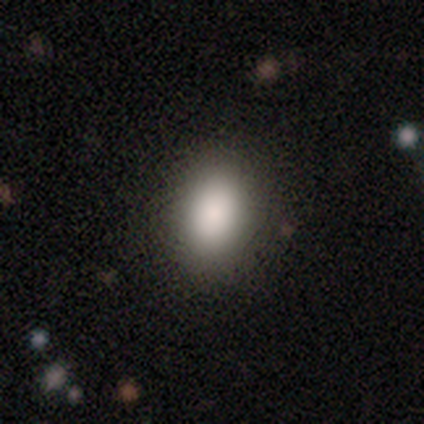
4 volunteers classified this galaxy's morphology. Smooth or featured? 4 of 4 (100%) said smooth. How rounded? 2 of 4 (50%, tied with in between) said round. Merging? 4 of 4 (100%) said none.